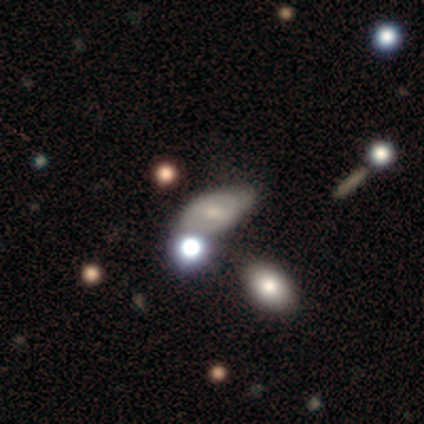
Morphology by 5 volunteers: This appears to be a smooth galaxy with no disk features (60%) that is in between round and cigar-shaped (100%). Merging: none (60%).